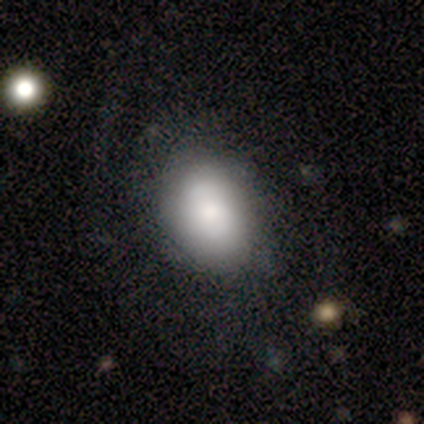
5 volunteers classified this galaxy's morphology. Overall: smooth (80%). How rounded: in between (100%). Merging: minor disturbance (60%; none 20%).